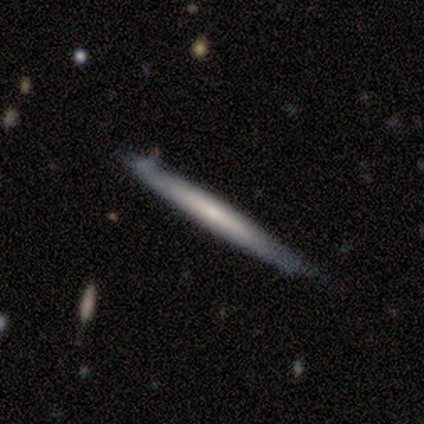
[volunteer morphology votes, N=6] type=smooth (67%); roundness=cigar-shaped (100%); merging=none (100%).